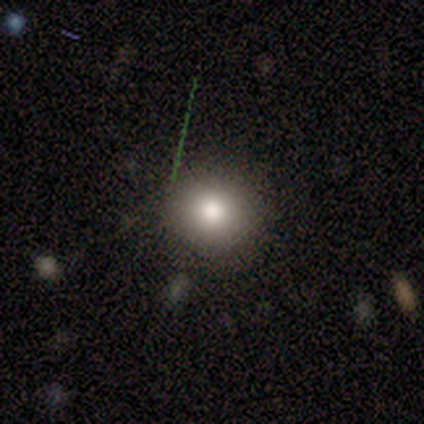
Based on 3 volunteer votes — A smooth galaxy with no disk features (100%) that is round (67%). Merging: none (100%).